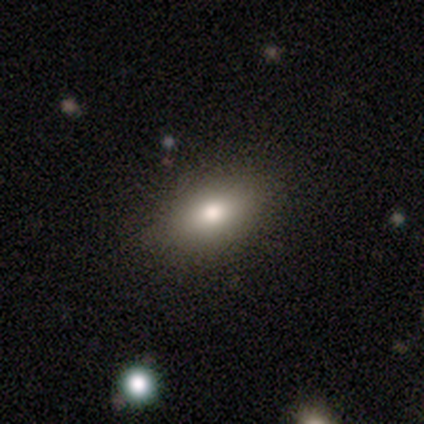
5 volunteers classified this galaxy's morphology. Smooth or featured? smooth (80%)
How rounded? in between (75%)
Merging? none (80%)